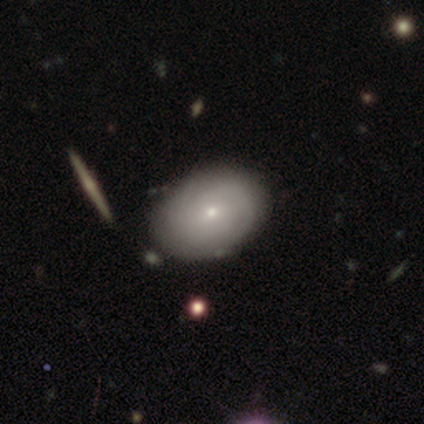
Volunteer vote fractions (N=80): Overall: smooth (54%; featured or disk 46%). How rounded: in between (77%). Merging: none (46%).